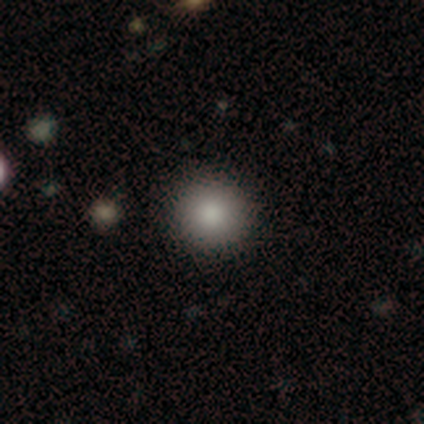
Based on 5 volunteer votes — Q: Smooth or featured?
A: smooth (100%)
Q: How rounded?
A: round (100%)
Q: Merging?
A: none (100%)